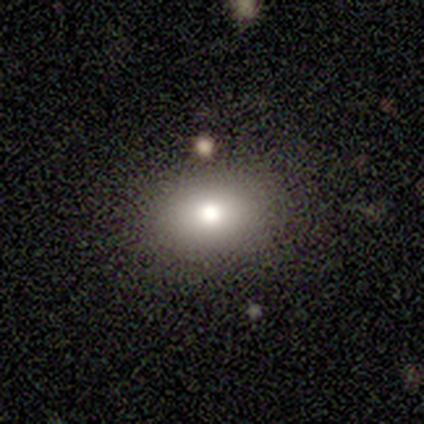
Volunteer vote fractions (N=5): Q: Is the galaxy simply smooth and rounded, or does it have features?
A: smooth — 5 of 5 (100%).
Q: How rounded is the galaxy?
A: round — 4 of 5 (80%).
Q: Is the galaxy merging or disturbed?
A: none — 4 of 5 (80%).